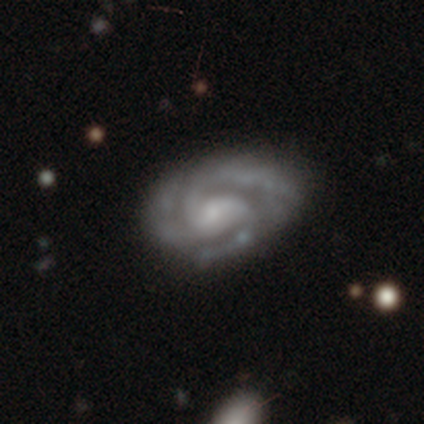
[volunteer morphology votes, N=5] This appears to be a featured or disk galaxy (100%) with a weak bar (60%), 3 (60%) medium (60%) spiral arms (100%) and a small central bulge (40%, tied with none). Merging: none (80%).